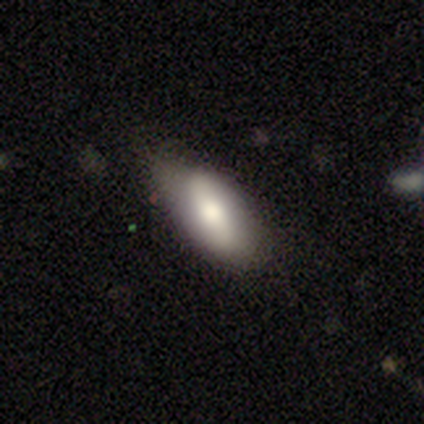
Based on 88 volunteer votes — smooth-or-featured: smooth: 65% | featured or disk: 28% | star or artifact: 7%
  how-rounded: in between: 89% | cigar-shaped: 11% | round: 0%
  merging: none: 59% | minor disturbance: 37% | major disturbance: 5% | merger: 0%